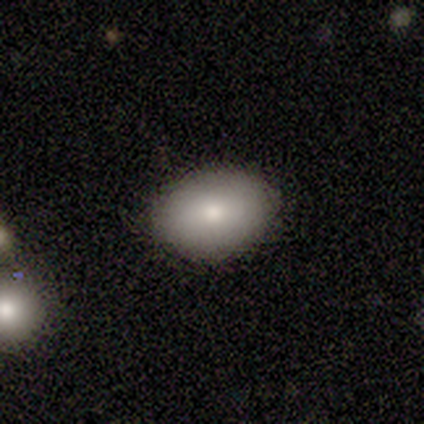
Morphology: type=smooth (50%); roundness=in between (100%); merging=none (100%).